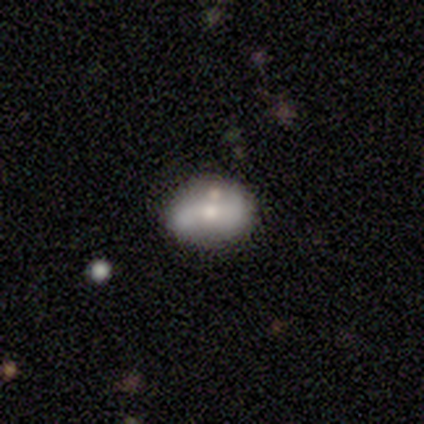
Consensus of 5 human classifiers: Smooth or featured?
  - featured or disk: 80% *
  - star or artifact: 20%
  - smooth: 0%
Edge-on disk?
  - no: 100% *
  - yes: 0%
Bar?
  - strong: 50% *
  - weak: 25%
  - no: 25%
Spiral arms?
  - yes: 75% *
  - no: 25%
Spiral winding?
  - loose: 67% *
  - medium: 33%
  - tight: 0%
Spiral arm count?
  - 2: 100% *
  - 1: 0%
  - 3: 0%
  - 4: 0%
  - more than 4: 0%
  - can't tell: 0%
Bulge size?
  - moderate: 75% *
  - small: 25%
  - dominant: 0%
  - large: 0%
  - none: 0%
Merging?
  - none: 100% *
  - minor disturbance: 0%
  - major disturbance: 0%
  - merger: 0%